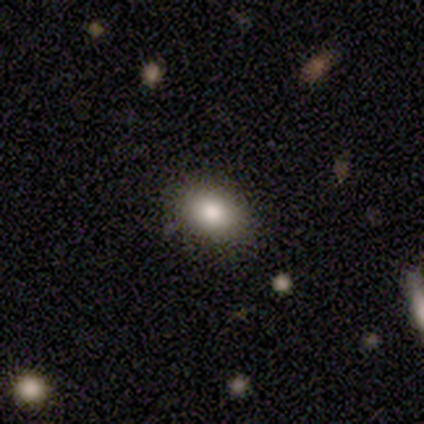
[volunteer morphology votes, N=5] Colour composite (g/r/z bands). It shows a smooth galaxy with no disk features (100%) that is in between round and cigar-shaped (100%). Merging: none (60%).